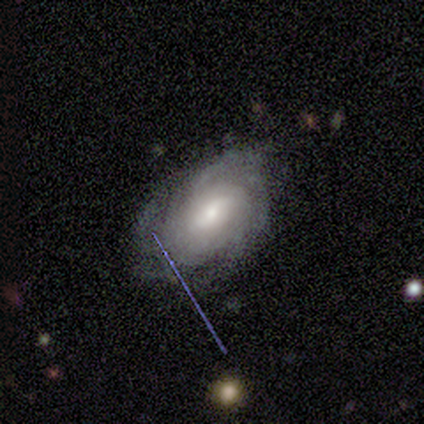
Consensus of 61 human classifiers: A featured or disk galaxy (82%) with a weak bar (43%), tight (55%) spiral arms (96%) and a moderate central bulge (51%). Merging: none (63%).